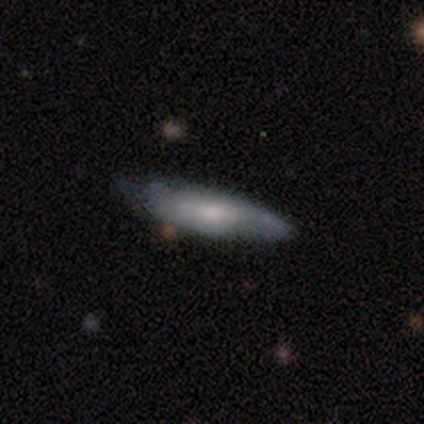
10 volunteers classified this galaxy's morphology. This appears to be a smooth galaxy with no disk features (60%) that is in between round and cigar-shaped (50%, tied with cigar-shaped). Merging: none (89%).